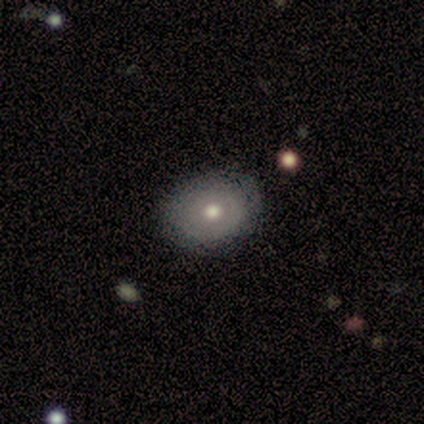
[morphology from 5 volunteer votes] smooth 60%, featured or disk 40%, star or artifact 0%. Down the decision tree: how rounded — round (67%); merging — none (80%).